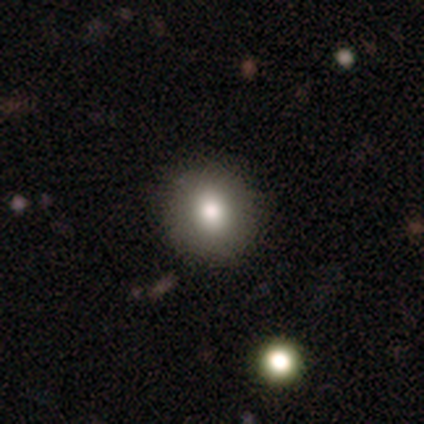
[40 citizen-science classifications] Smooth or featured? 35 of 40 (88%) said smooth. How rounded? 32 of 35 (91%) said round. Merging? 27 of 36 (75%) said none.